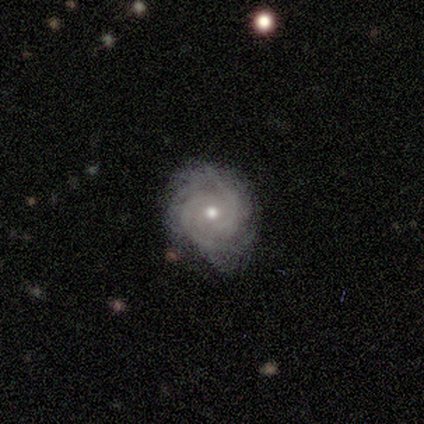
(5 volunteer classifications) A featured or disk galaxy (100%) with no bar (100%), 2 (80%) tight (60%) spiral arms (100%) and a moderate central bulge (60%). Merging: none (100%).